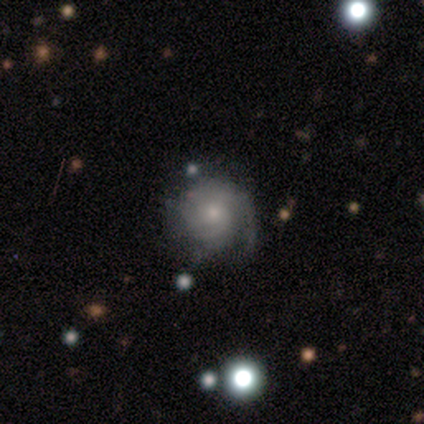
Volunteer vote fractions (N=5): smooth-or-featured: featured or disk: 80% | smooth: 20% | star or artifact: 0%
  disk-edge-on: no: 100% | yes: 0%
    bar: no: 100% | strong: 0% | weak: 0%
    has-spiral-arms: yes: 100% | no: 0%
      spiral-winding: tight: 50% | medium: 25% | loose: 25%
      spiral-arm-count: can't tell: 50% | 1: 25% | 2: 25% | 3: 0% | 4: 0% | more than 4: 0%
    bulge-size: small: 75% | moderate: 25% | dominant: 0% | large: 0% | none: 0%
  merging: none: 80% | major disturbance: 20% | minor disturbance: 0% | merger: 0%